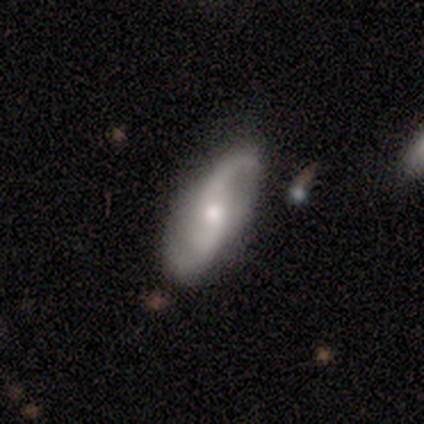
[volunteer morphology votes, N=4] smooth_or_featured: featured or disk (p=0.75) [alt: smooth p=0.25]
disk_edge_on: no (p=1.00)
bar: strong (p=0.33) [tied with: weak p=0.33, no p=0.33]
has_spiral_arms: yes (p=0.67) [alt: no p=0.33]
spiral_winding: medium (p=0.50) [tied with: loose p=0.50]
spiral_arm_count: 2 (p=1.00)
bulge_size: small (p=0.67) [alt: none p=0.33]
merging: none (p=0.75) [alt: minor disturbance p=0.25]